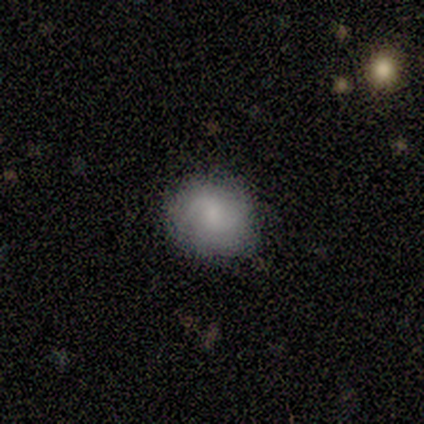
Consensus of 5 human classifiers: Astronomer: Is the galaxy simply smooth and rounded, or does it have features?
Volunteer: smooth — 100%.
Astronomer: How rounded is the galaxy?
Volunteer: round — 100%.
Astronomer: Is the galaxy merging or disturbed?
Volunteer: none — 80%.